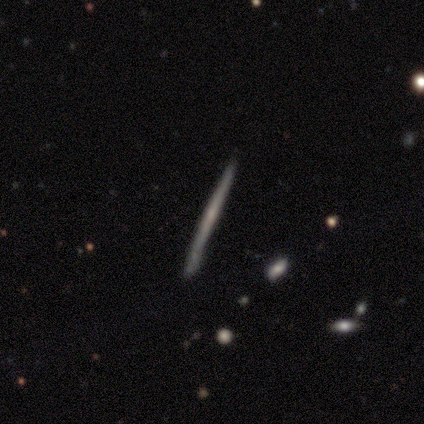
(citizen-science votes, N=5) Volunteers were most divided on "smooth or featured": featured or disk: 60%, smooth: 40%, star or artifact: 0%. More confident: edge-on disk — yes (100%); edge-on bulge — none (100%); merging — none (100%).